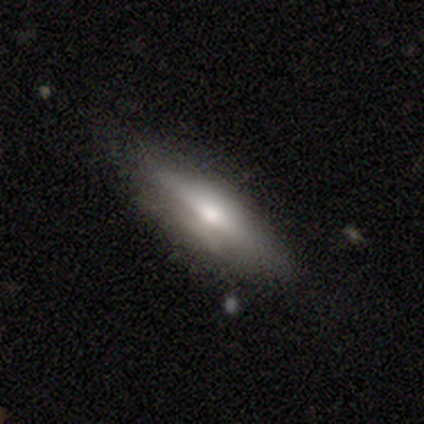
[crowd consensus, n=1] A smooth galaxy with no disk features (100%) that is in between round and cigar-shaped (100%). Merging: none (100%).